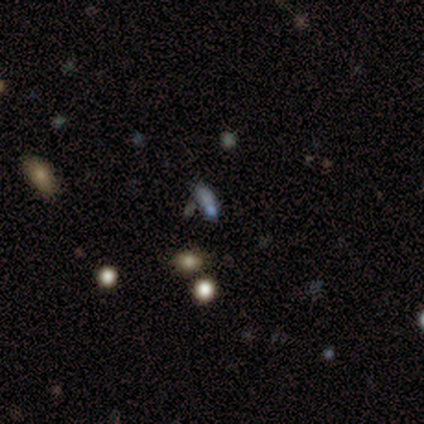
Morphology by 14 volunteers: Smooth or featured?
  - star or artifact: 43% *
  - smooth: 36%
  - featured or disk: 21%